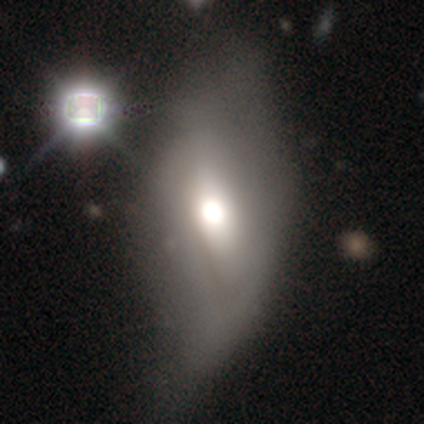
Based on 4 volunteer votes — This appears to be a smooth galaxy with no disk features (75%) that is in between round and cigar-shaped (67%). Merging: none (33%, tied with minor disturbance and major disturbance).